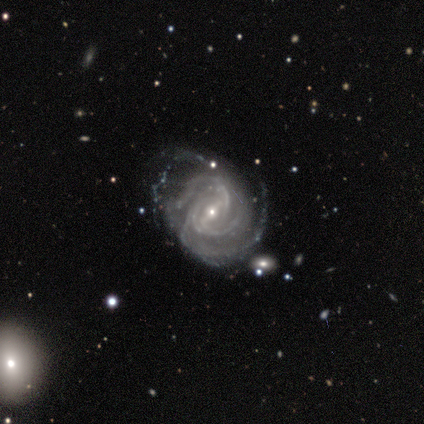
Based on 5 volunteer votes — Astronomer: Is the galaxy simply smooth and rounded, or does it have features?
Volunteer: featured or disk — 100%.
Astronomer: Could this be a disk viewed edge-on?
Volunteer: no — 100%.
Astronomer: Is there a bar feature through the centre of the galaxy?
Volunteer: weak — 60%.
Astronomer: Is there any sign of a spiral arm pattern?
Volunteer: yes — 100%.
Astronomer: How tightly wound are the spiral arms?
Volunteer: tight — 60% (runner-up: medium, 40%).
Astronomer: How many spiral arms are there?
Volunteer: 4 — 60%.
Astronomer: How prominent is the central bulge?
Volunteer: small — 100%.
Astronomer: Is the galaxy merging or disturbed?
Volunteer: major disturbance — 60%.